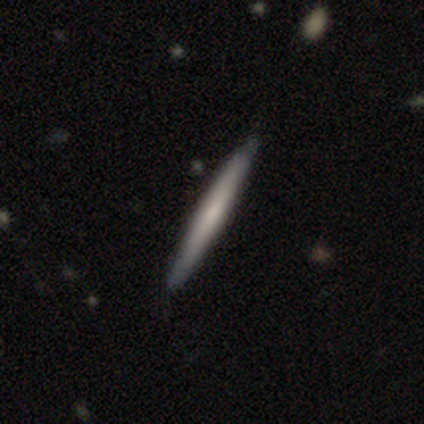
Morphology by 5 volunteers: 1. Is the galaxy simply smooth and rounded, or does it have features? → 80% featured or disk, 20% smooth, 0% star or artifact.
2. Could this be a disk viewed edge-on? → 100% yes, 0% no.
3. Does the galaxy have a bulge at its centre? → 50% boxy, 25% none, 25% rounded.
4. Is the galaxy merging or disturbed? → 80% none, 20% minor disturbance, 0% major disturbance, 0% merger.